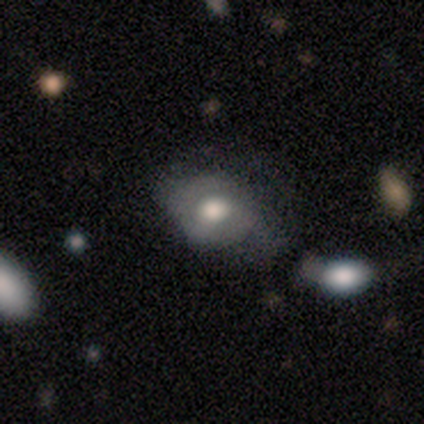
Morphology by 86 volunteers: Volunteers were most divided on "merging": minor disturbance: 36%, none: 33%, major disturbance: 26%, merger: 5%. More confident: smooth or featured — smooth (57%); how rounded — in between (55%).